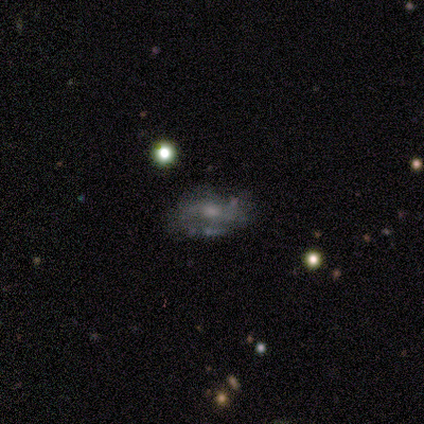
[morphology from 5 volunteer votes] Smooth or featured? featured or disk (60%)
Edge-on disk? no (100%)
Bar? no (100%)
Spiral arms? yes (67%)
Spiral winding? medium (50%, tied with loose)
Spiral arm count? 2 (100%)
Bulge size? moderate (33%, tied with small and none)
Merging? minor disturbance (67%)